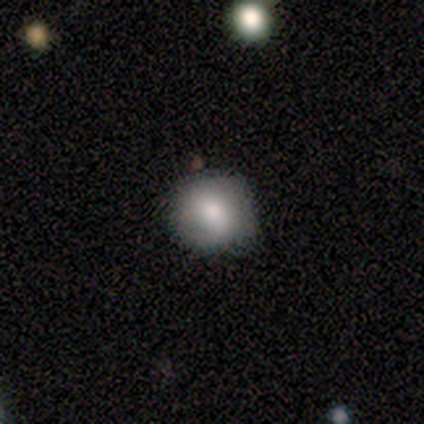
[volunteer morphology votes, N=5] This appears to be a smooth galaxy with no disk features (100%) that is round (100%). Merging: none (100%).